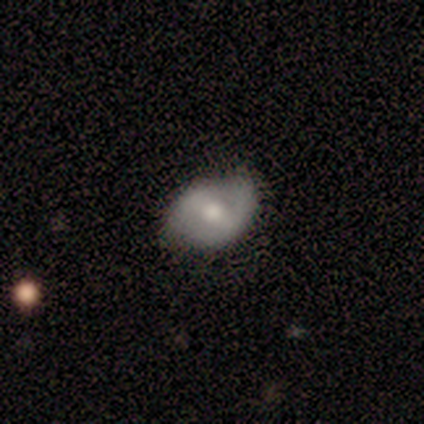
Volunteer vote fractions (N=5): smooth 80%, featured or disk 20%, star or artifact 0%. Down the decision tree: how rounded — round (50%, tied with in between); merging — minor disturbance (60%).